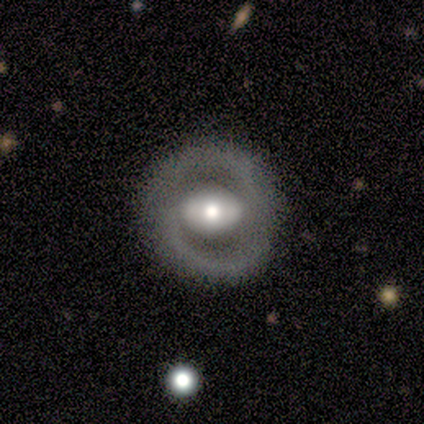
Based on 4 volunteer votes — Morphology: type=featured or disk (100%); edge-on=no (75%); bar=strong (100%); spiral arms=no (67%); bulge=large (67%); merging=none (100%).